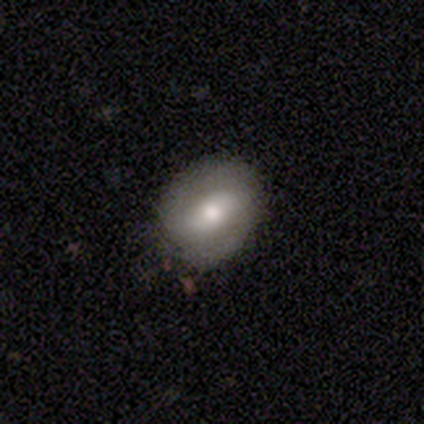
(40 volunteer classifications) This is possibly a featured or disk galaxy (55%). It is clearly not viewed edge-on (100%). Bar: possibly strong (50%). Spiral arm pattern: possibly yes (55%). Spiral arm count: likely 2 (67%). Spiral winding: possibly tight (58%). Central bulge: likely moderate (73%). Merging: clearly none (84%).